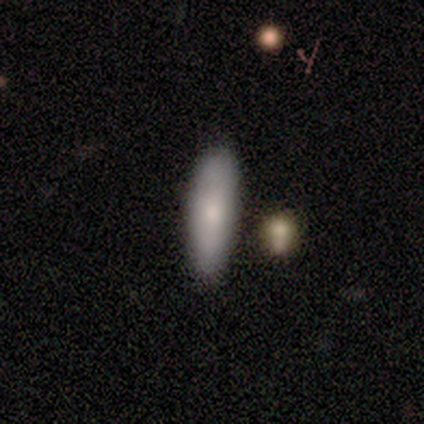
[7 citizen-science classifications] Smooth or featured? 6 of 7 (86%) said smooth. How rounded? 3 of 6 (50%, tied with cigar-shaped) said in between. Merging? 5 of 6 (83%) said none.